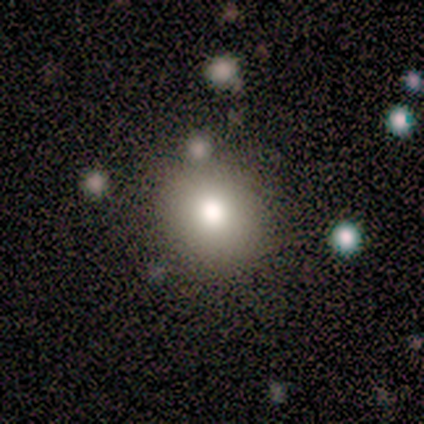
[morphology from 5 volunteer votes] Smooth or featured? 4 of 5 (80%) said smooth. How rounded? 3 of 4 (75%) said round. Merging? 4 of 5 (80%) said none.